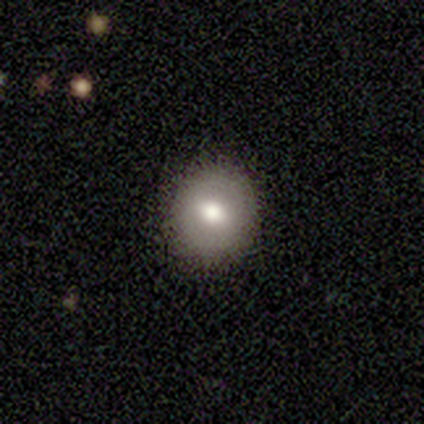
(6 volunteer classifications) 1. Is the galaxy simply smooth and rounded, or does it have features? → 83% smooth, 17% star or artifact, 0% featured or disk.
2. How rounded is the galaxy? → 100% round, 0% in between, 0% cigar-shaped.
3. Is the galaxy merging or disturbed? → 80% none, 20% minor disturbance, 0% major disturbance, 0% merger.